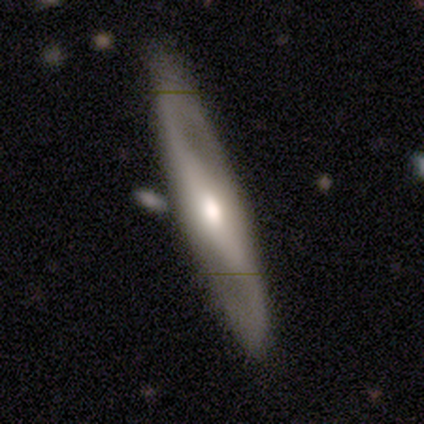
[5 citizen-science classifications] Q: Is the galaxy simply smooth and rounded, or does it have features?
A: featured or disk — 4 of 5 (80%).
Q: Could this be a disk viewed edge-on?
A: yes — 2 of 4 (50%, tied with no).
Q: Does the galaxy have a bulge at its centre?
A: rounded — 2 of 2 (100%).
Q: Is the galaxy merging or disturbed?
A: none — 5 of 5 (100%).